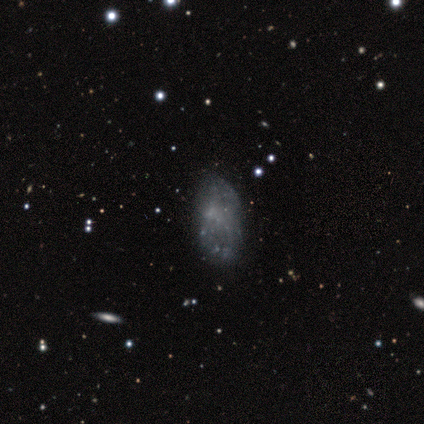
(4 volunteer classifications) featured or disk 100%, smooth 0%, star or artifact 0%. Down the decision tree: edge-on disk — no (100%); bar — no (100%); spiral arms — no (100%); bulge size — none (100%); merging — minor disturbance (50%).